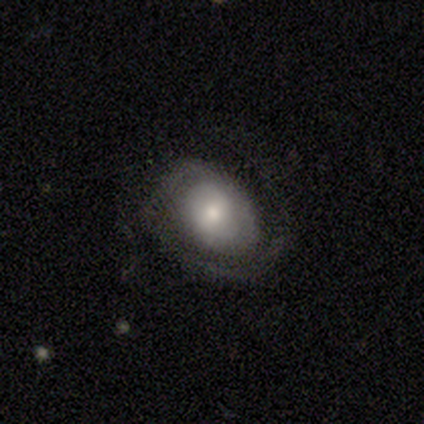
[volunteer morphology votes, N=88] Smooth or featured? featured or disk (69%)
Edge-on disk? no (95%)
Bar? no (55%)
Spiral arms? yes (88%)
Spiral winding? tight (63%)
Spiral arm count? 1 (45%)
Bulge size? moderate (53%)
Merging? none (66%)